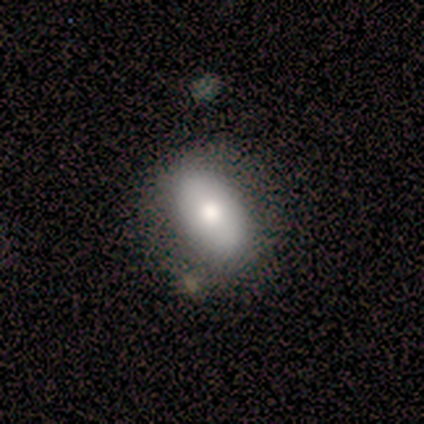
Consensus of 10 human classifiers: Smooth or featured?
  - smooth: 60% *
  - featured or disk: 30%
  - star or artifact: 10%
How rounded?
  - in between: 83% *
  - round: 17%
  - cigar-shaped: 0%
Merging?
  - none: 67% *
  - minor disturbance: 33%
  - major disturbance: 0%
  - merger: 0%